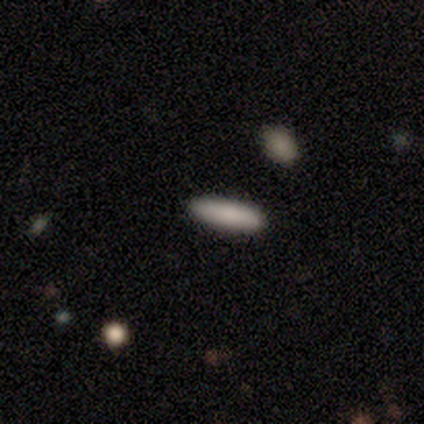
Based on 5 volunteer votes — This appears to be a smooth galaxy with no disk features (80%) that is in between round and cigar-shaped (50%, tied with cigar-shaped). Merging: none (100%).